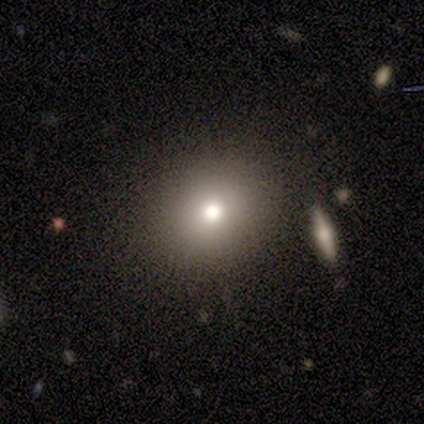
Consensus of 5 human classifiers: Morphology: type=smooth (80%); roundness=round (75%); merging=none (60%).